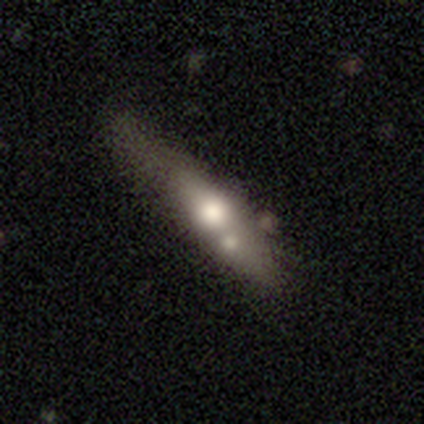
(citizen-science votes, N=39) Smooth or featured? 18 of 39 (46%) said smooth. How rounded? 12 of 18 (67%) said cigar-shaped. Merging? 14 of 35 (40%) said none.